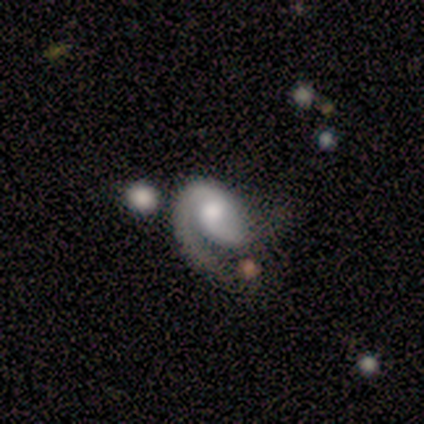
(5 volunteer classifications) Volunteers were most divided on "spiral arm count" (2-way tie): 1: 50%, 2: 50%, 3: 0%, 4: 0%, more than 4: 0%, can't tell: 0%. More confident: smooth or featured — featured or disk (100%); spiral arms — yes (100%); edge-on disk — no (80%); bar — no (75%); spiral winding — loose (75%); bulge size — moderate (75%); merging — none (60%).